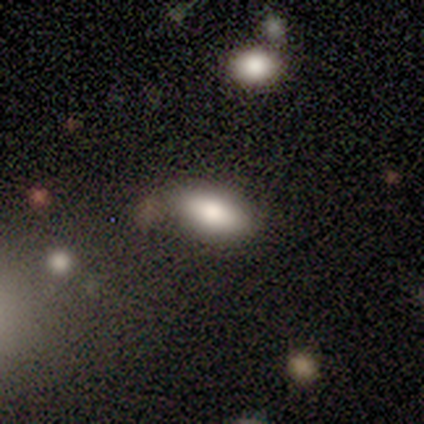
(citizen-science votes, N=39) A smooth galaxy with no disk features (85%) that is in between round and cigar-shaped (97%). Merging: none (65%).